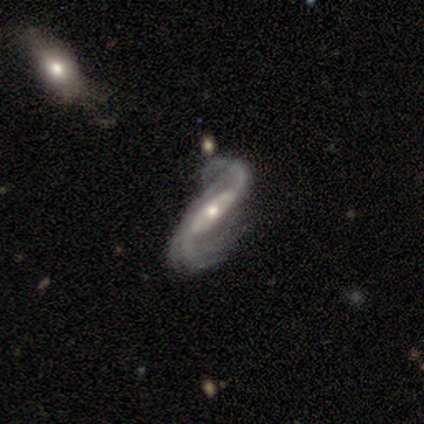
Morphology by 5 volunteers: A featured or disk galaxy (100%) with a strong bar (40%, tied with weak), 2 (100%) loose (60%) spiral arms (100%) and a small central bulge (80%).

Vote fractions:
- Smooth or featured? featured or disk: 100% / smooth: 0% / star or artifact: 0%
- Edge-on disk? no: 100% / yes: 0%
- Bar? strong: 40% (tied) / weak: 40% (tied) / no: 20%
- Spiral arms? yes: 100% / no: 0%
- Spiral winding? loose: 60% / tight: 20% / medium: 20%
- Spiral arm count? 2: 100% / 1: 0% / 3: 0% / 4: 0% / more than 4: 0% / can't tell: 0%
- Bulge size? small: 80% / moderate: 20% / dominant: 0% / large: 0% / none: 0%
- Merging? none: 80% / minor disturbance: 20% / major disturbance: 0% / merger: 0%